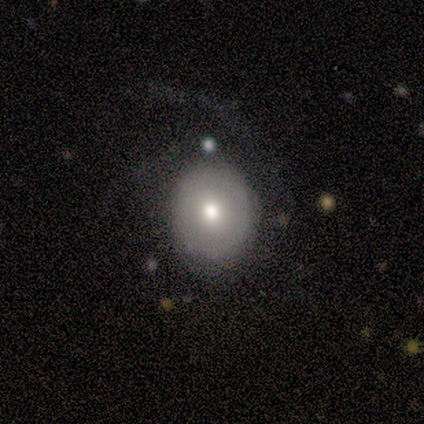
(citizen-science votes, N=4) Morphology: type=smooth (100%); roundness=round (50%, tied with in between); merging=major disturbance (75%).